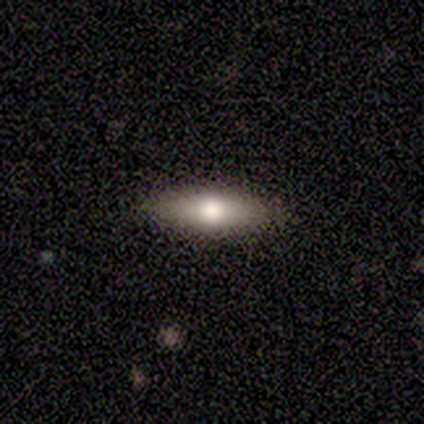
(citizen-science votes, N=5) Smooth or featured? featured or disk (60%)
Edge-on disk? yes (67%)
Edge-on bulge? rounded (100%)
Merging? none (80%)